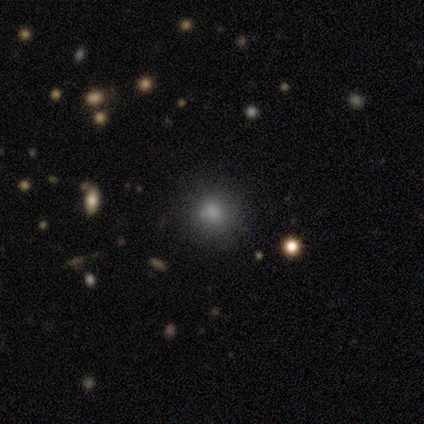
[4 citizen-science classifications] Consensus on every question: smooth or featured — smooth (100%); how rounded — round (100%); merging — none (100%).